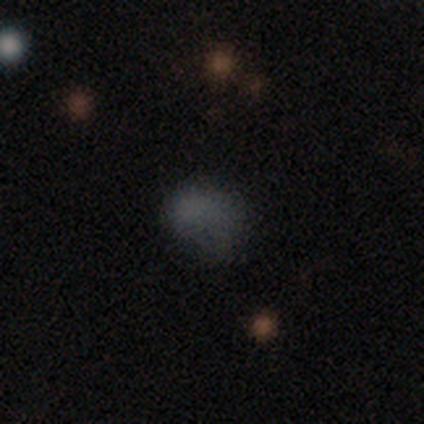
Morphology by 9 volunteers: This appears to be a smooth galaxy with no disk features (89%) that is in between round and cigar-shaped (62%). Merging: none (62%).